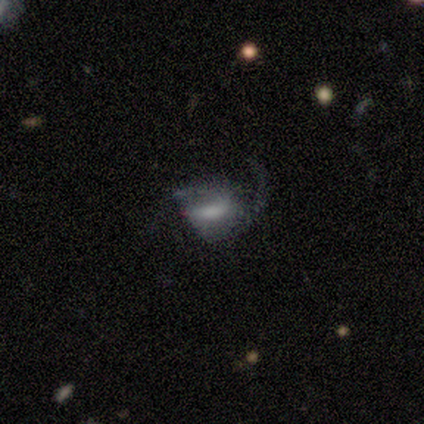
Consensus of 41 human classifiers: A featured or disk galaxy (68%) with no bar (39%), 2 (48%) loose (48%) spiral arms (75%) and a large central bulge (32%, tied with moderate).

Vote fractions:
- Smooth or featured? featured or disk: 68% / smooth: 27% / star or artifact: 5%
- Edge-on disk? no: 100% / yes: 0%
- Bar? no: 39% / weak: 32% / strong: 29%
- Spiral arms? yes: 75% / no: 25%
- Spiral winding? loose: 48% / medium: 43% / tight: 10%
- Spiral arm count? 2: 48% / 1: 33% / can't tell: 10% / 3: 5% / 4: 5% / more than 4: 0%
- Bulge size? large: 32% (tied) / moderate: 32% (tied) / small: 18% / none: 14% / dominant: 4%
- Merging? major disturbance: 54% / none: 31% / minor disturbance: 15% / merger: 0%